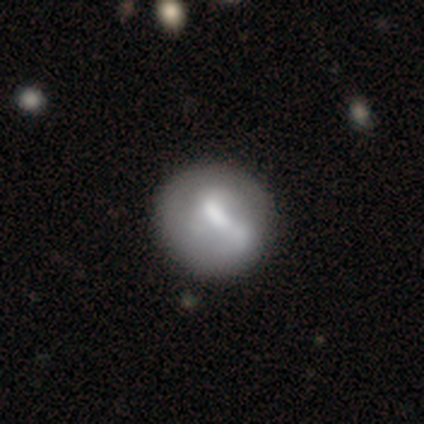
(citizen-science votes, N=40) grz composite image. It shows a featured or disk galaxy (50%) with a weak bar (50%), no spiral arms (80%) and a moderate central bulge (65%). Merging: none (41%).